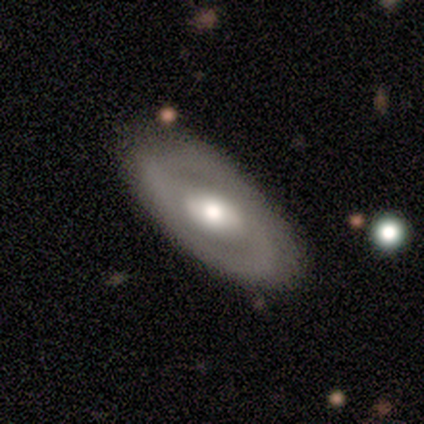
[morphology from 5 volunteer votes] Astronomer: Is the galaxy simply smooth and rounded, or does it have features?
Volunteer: featured or disk — 60%.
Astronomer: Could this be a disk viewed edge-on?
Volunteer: no — 100%.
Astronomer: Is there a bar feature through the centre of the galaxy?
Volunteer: strong — 33%, tied with weak and no at 33%.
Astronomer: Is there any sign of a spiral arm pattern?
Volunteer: no — 67%.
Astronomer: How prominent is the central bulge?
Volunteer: moderate — 67%.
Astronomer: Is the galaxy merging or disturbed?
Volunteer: none — 75%.